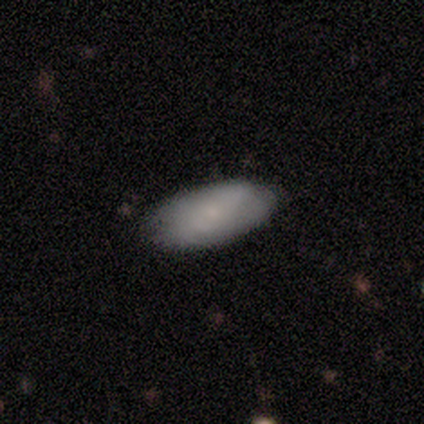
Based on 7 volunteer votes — Volunteers were most divided on "smooth or featured": smooth: 71%, featured or disk: 29%, star or artifact: 0%. More confident: merging — none (100%); how rounded — in between (80%).